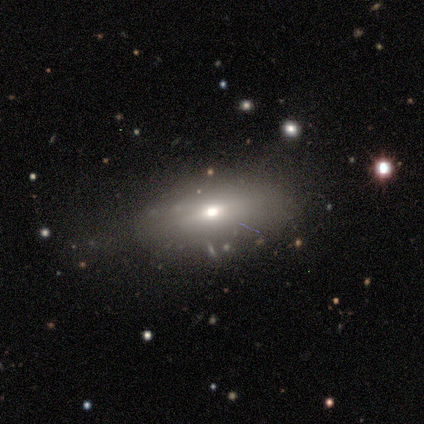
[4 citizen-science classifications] Morphology: type=smooth (75%); roundness=in between (100%); merging=none (100%).